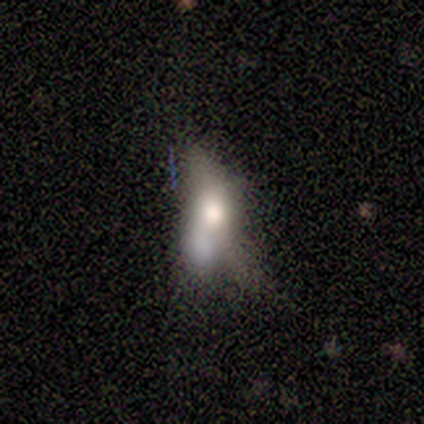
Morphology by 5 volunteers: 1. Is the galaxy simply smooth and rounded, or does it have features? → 80% featured or disk, 20% smooth, 0% star or artifact.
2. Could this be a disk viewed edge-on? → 75% no, 25% yes.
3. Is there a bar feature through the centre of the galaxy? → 67% no, 33% weak, 0% strong.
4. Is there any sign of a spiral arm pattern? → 67% no, 33% yes.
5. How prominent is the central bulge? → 67% large, 33% moderate, 0% dominant, 0% small, 0% none.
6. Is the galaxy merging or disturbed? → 60% merger, 40% major disturbance, 0% none, 0% minor disturbance.